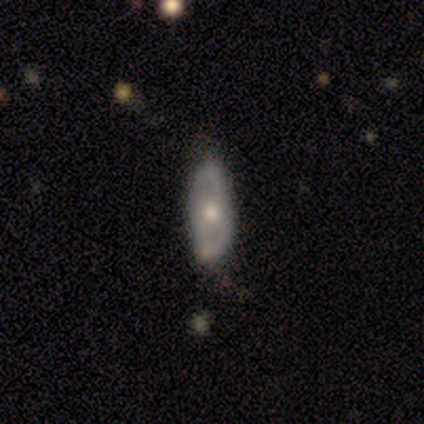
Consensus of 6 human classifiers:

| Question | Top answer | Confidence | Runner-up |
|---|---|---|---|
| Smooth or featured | featured or disk | 50% | smooth (33%) |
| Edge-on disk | no | 100% | — |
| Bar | no | 100% | — |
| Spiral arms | no | 67% | yes (33%) |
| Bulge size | moderate | 67% | small (33%) |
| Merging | none | 80% | minor disturbance (20%) |